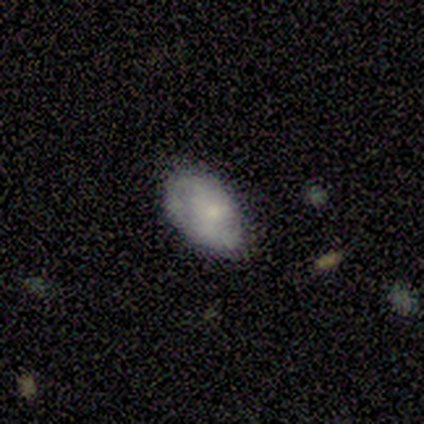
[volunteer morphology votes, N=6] Overall: smooth (100%). How rounded: in between (100%). Merging: minor disturbance (67%; none 33%).